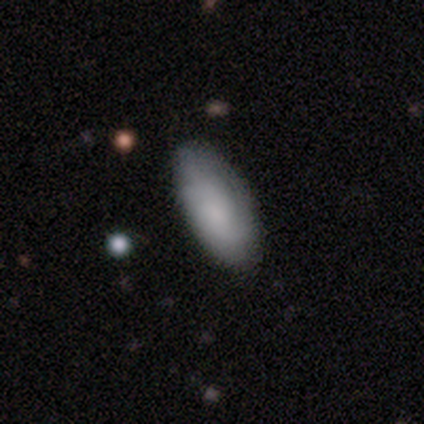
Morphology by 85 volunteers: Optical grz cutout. It shows a smooth galaxy with no disk features (82%) that is in between round and cigar-shaped (94%). Merging: none (79%).